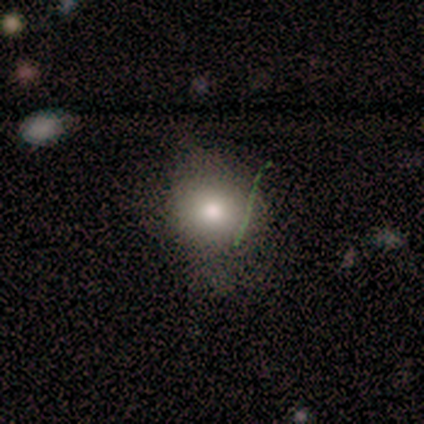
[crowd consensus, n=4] A smooth galaxy with no disk features (100%) that is in between round and cigar-shaped (75%). Merging: none (50%, tied with minor disturbance).